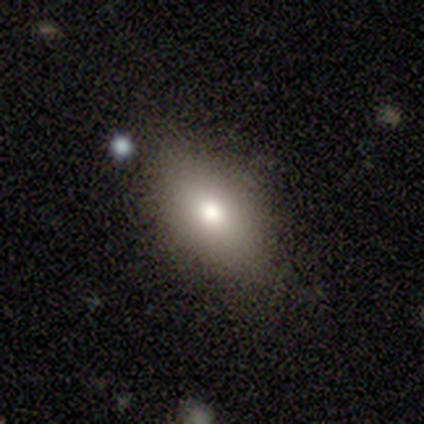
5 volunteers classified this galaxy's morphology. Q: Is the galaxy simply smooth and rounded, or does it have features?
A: smooth — 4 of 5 (80%).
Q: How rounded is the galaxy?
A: in between — 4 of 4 (100%).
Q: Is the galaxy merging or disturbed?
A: none — 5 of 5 (100%).